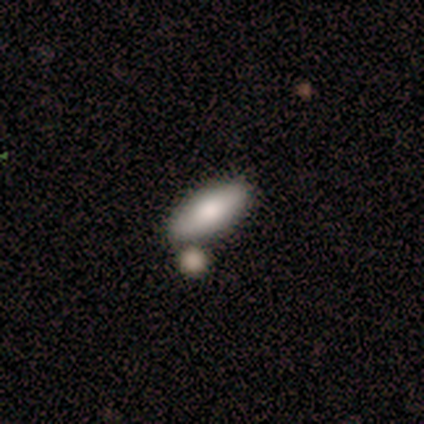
This is clearly a smooth galaxy (80%). How rounded: possibly in between (50%, tied with cigar-shaped). Merging: clearly none (80%).